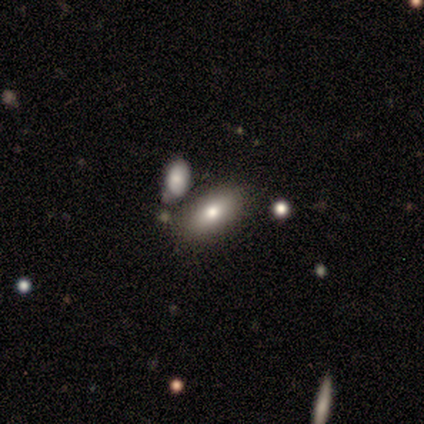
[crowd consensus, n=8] Smooth or featured: smooth — 88% (featured or disk — 12%)
How rounded: in between — 100%
Merging: none — 75% (minor disturbance — 12%)